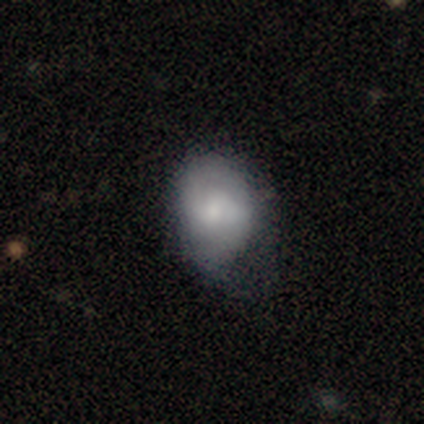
Volunteers were most divided on "merging": minor disturbance: 23%, none: 22%, major disturbance: 7%, merger: 0%. More confident: how rounded — in between (71%); smooth or featured — smooth (52%).